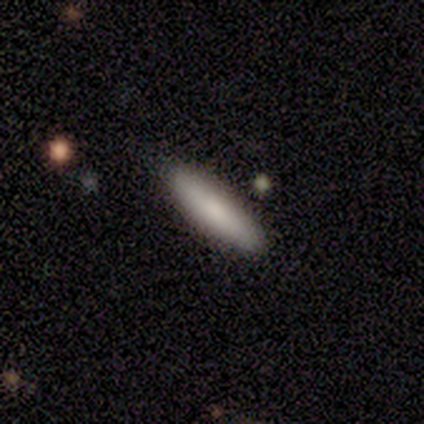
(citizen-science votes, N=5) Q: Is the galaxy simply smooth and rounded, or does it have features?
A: smooth — 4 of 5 (80%).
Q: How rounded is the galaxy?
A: cigar-shaped — 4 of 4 (100%).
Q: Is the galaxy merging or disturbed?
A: none — 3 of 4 (75%).